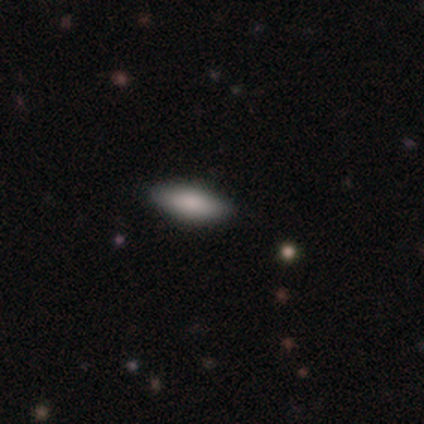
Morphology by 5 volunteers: type=smooth (100%); roundness=in between (100%); merging=none (100%).